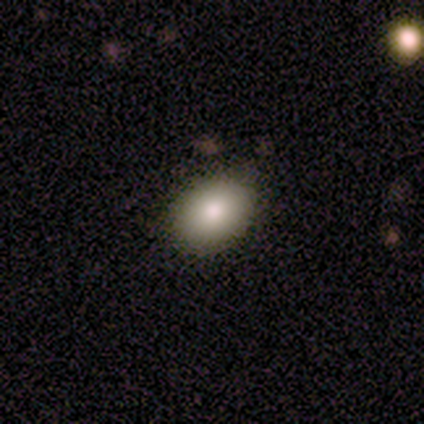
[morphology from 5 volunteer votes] Smooth or featured? 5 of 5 (100%) said smooth. How rounded? 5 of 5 (100%) said in between. Merging? 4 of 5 (80%) said none.